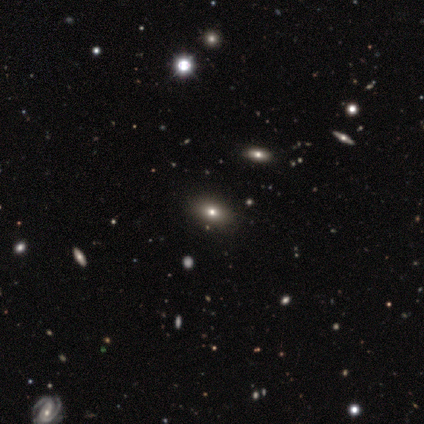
Smooth or featured: star or artifact — 80% (smooth — 20%)